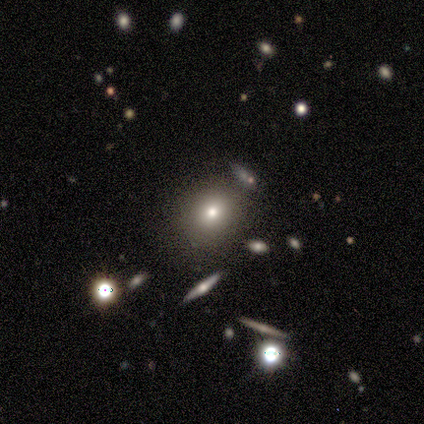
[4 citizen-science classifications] Overall: smooth (50%, tied with star or artifact). How rounded: round (50%, tied with in between). Merging: none (100%).